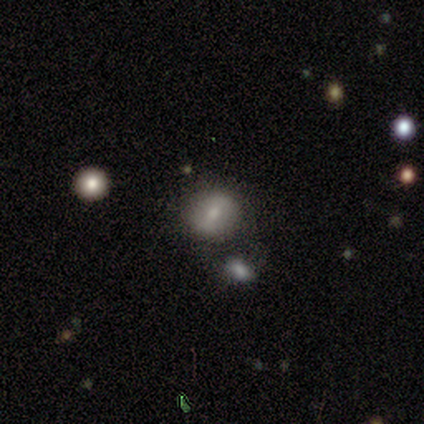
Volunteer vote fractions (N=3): smooth-or-featured: featured or disk: 100% | smooth: 0% | star or artifact: 0%
  disk-edge-on: no: 100% | yes: 0%
    bar: strong: 67% | weak: 33% | no: 0%
    has-spiral-arms: yes: 67% | no: 33%
      spiral-winding: tight: 50% (tied) | medium: 50% (tied) | loose: 0%
      spiral-arm-count: 2: 50% (tied) | can't tell: 50% (tied) | 1: 0% | 3: 0% | 4: 0% | more than 4: 0%
    bulge-size: small: 67% | moderate: 33% | dominant: 0% | large: 0% | none: 0%
  merging: none: 67% | merger: 33% | minor disturbance: 0% | major disturbance: 0%